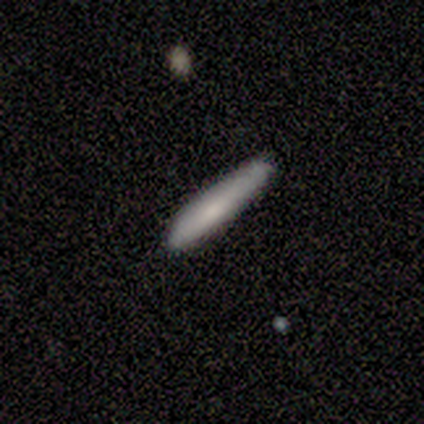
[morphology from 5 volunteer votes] This is clearly a smooth galaxy (80%). How rounded: clearly cigar-shaped (100%). Merging: likely none (75%).